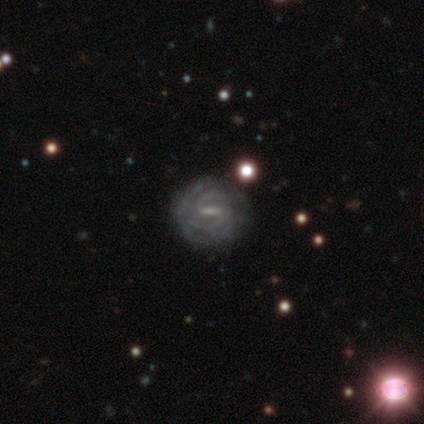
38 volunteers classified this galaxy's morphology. featured or disk 82%, smooth 11%, star or artifact 8%. Down the decision tree: edge-on disk — no (94%); bar — weak (55%); spiral arms — yes (83%); spiral arm count — 2 (50%); spiral winding — tight (62%); bulge size — small (66%); merging — none (77%).